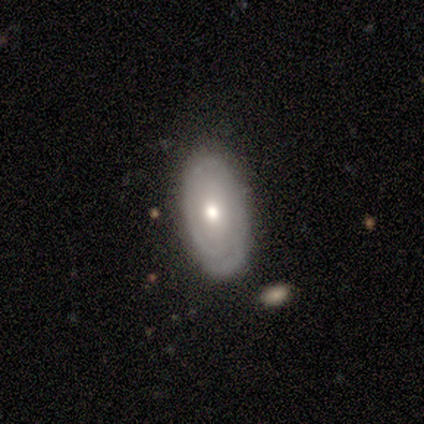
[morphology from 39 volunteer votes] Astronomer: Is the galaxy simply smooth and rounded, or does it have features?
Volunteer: featured or disk — 51% (runner-up: smooth, 46%).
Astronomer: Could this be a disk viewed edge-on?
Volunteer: no — 95%.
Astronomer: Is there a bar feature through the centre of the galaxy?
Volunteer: no — 79%.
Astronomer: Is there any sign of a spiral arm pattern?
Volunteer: yes — 74%.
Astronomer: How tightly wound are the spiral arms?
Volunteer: tight — 79%.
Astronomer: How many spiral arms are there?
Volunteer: can't tell — 50%.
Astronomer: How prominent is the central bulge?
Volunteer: moderate — 95%.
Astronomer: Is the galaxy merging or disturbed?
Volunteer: none — 82%.